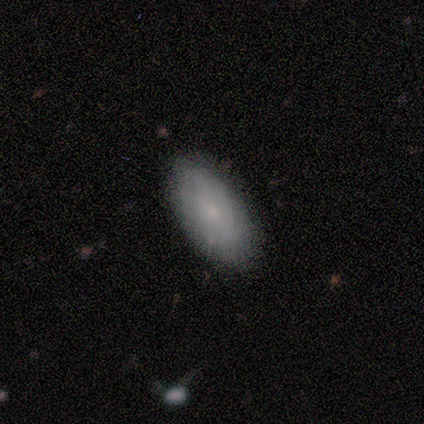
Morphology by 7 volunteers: This appears to be a featured or disk galaxy (57%) with no bar (100%), 2 (50%, tied with can't tell) tight (100%) spiral arms (67%) and a small central bulge (100%). Merging: none (100%).